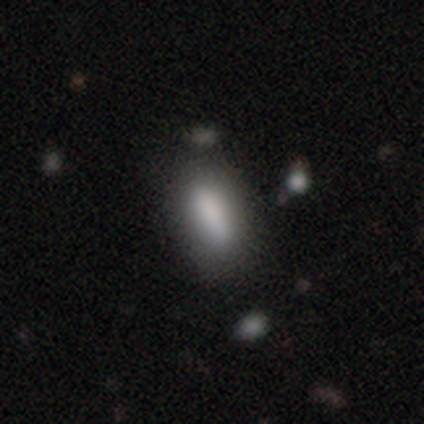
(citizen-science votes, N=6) smooth_or_featured: smooth (p=1.00)
how_rounded: in between (p=0.83) [alt: cigar-shaped p=0.17]
merging: none (p=1.00)